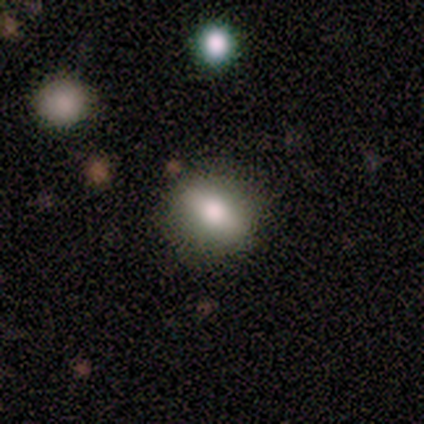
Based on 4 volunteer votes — Smooth or featured: smooth — 75% (featured or disk — 25%)
How rounded: in between — 67% (round — 33%)
Merging: none — 100%